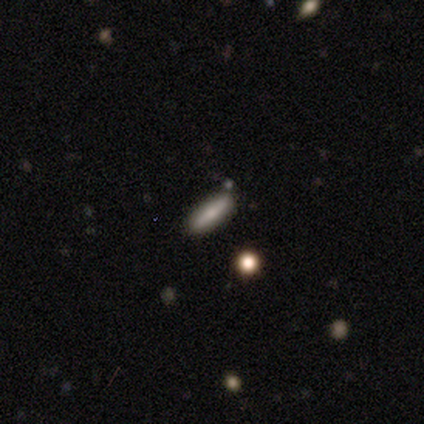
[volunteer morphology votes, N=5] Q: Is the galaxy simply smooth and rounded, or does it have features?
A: smooth — 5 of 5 (100%).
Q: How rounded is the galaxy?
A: in between — 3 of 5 (60%).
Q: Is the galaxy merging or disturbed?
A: none — 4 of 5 (80%).